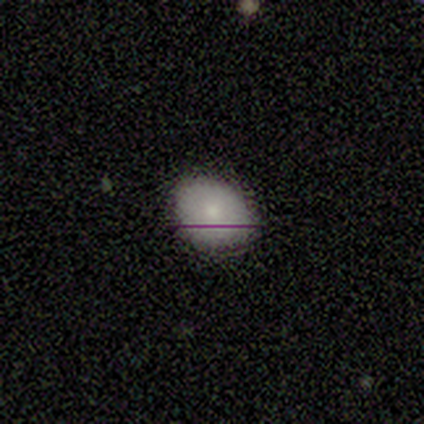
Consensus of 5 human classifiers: Q: Smooth or featured?
A: smooth (100%)
Q: How rounded?
A: in between (80%); runner-up: round (20%)
Q: Merging?
A: minor disturbance (60%); runner-up: none (40%)